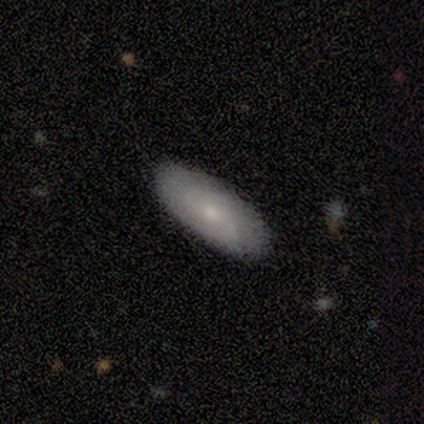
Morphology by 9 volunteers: Smooth or featured? 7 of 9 (78%) said smooth. How rounded? 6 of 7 (86%) said in between. Merging? 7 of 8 (88%) said none.